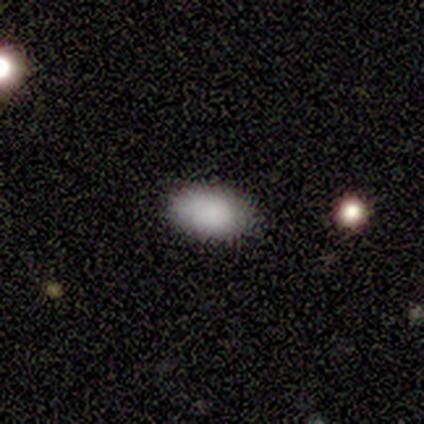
Smooth or featured? 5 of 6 (83%) said smooth. How rounded? 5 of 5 (100%) said in between. Merging? 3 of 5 (60%) said none.